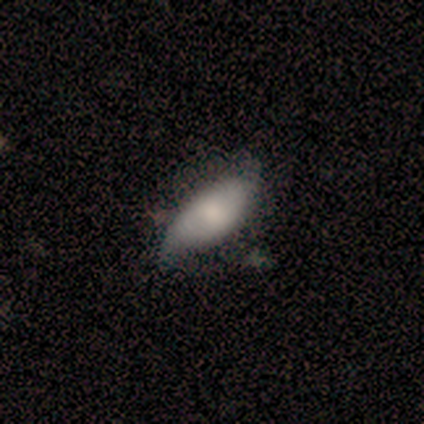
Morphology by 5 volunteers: Overall: smooth (60%; featured or disk 40%). How rounded: in between (100%). Merging: none (80%).